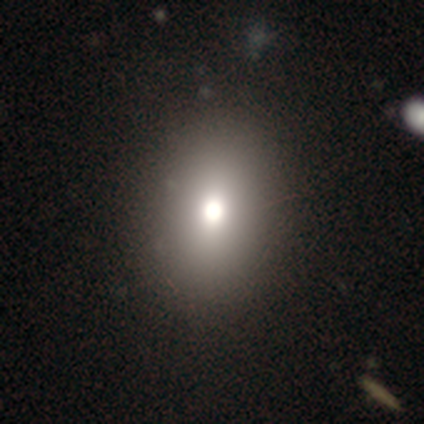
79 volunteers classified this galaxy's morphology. Volunteers were most divided on "how rounded": in between: 67%, round: 32%, cigar-shaped: 2%. Remaining: smooth or featured — smooth (76%); merging — none (48%).